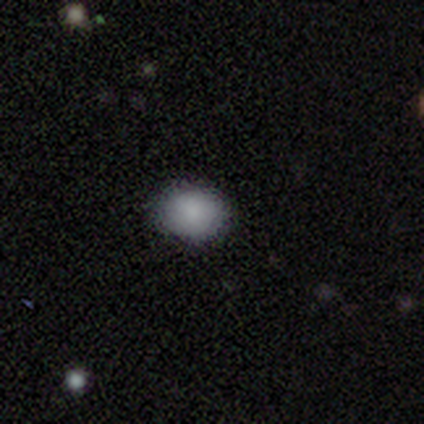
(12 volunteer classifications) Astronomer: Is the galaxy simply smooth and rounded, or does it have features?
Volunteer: smooth — 92%.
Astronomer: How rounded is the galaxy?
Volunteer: round — 64%.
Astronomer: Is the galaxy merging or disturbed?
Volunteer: none — 82%.